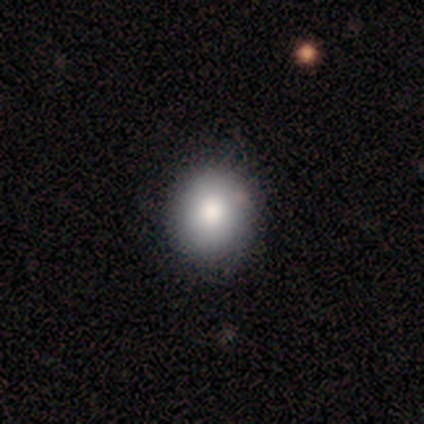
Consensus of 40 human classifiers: Smooth or featured?
  - smooth: 85% *
  - featured or disk: 8%
  - star or artifact: 8%
How rounded?
  - round: 82% *
  - in between: 18%
  - cigar-shaped: 0%
Merging?
  - none: 62% *
  - minor disturbance: 11%
  - major disturbance: 0%
  - merger: 0%